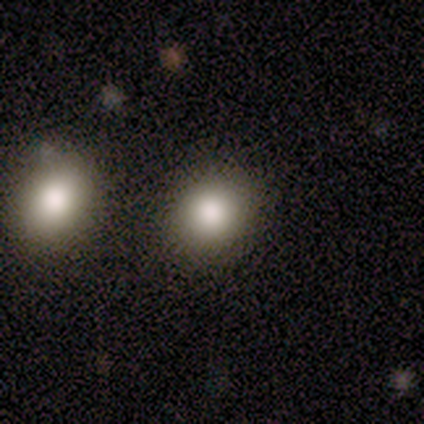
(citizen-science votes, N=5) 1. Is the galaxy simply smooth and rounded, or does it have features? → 60% smooth, 40% star or artifact, 0% featured or disk.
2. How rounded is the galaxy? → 100% round, 0% in between, 0% cigar-shaped.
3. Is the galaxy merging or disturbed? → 100% none, 0% minor disturbance, 0% major disturbance, 0% merger.